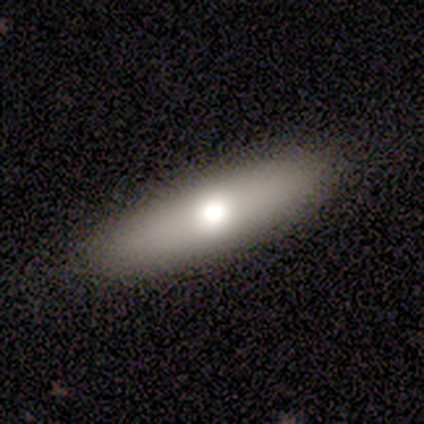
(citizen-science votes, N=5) Smooth or featured?
  - smooth: 80% *
  - featured or disk: 20%
  - star or artifact: 0%
How rounded?
  - in between: 75% *
  - cigar-shaped: 25%
  - round: 0%
Merging?
  - none: 100% *
  - minor disturbance: 0%
  - major disturbance: 0%
  - merger: 0%